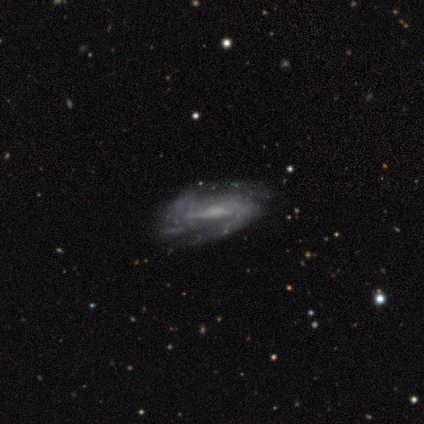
A featured or disk galaxy (85%) with a weak bar (40%), 2 (51%) medium (46%) spiral arms (85%) and a small central bulge (42%).

Vote fractions:
- Smooth or featured? featured or disk: 85% / smooth: 11% / star or artifact: 3%
- Edge-on disk? no: 91% / yes: 9%
- Bar? weak: 40% / strong: 38% / no: 23%
- Spiral arms? yes: 85% / no: 15%
- Spiral winding? medium: 46% / tight: 32% / loose: 22%
- Spiral arm count? 2: 51% / can't tell: 29% / 4: 12% / more than 4: 5% / 3: 2% / 1: 0%
- Bulge size? small: 42% / none: 33% / moderate: 23% / large: 2% / dominant: 0%
- Merging? none: 58% / minor disturbance: 28% / major disturbance: 13% / merger: 0%